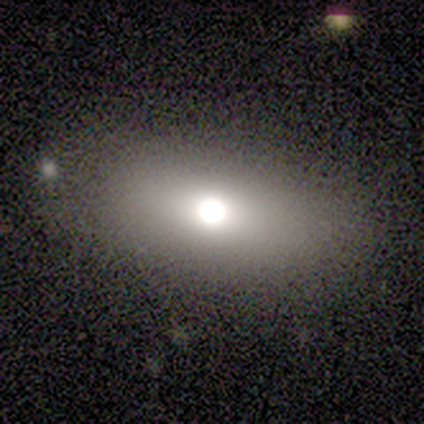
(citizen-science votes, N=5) Smooth or featured?
  - smooth: 60% *
  - featured or disk: 20%
  - star or artifact: 20%
How rounded?
  - in between: 100% *
  - round: 0%
  - cigar-shaped: 0%
Merging?
  - none: 100% *
  - minor disturbance: 0%
  - major disturbance: 0%
  - merger: 0%